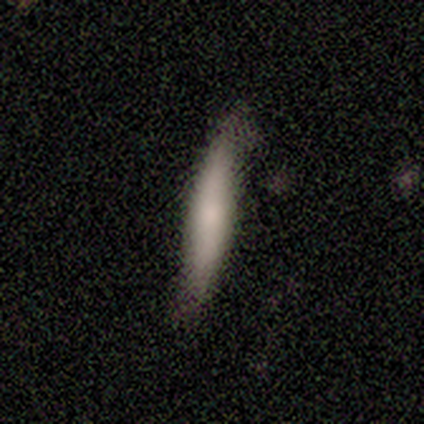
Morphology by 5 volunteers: This is clearly a smooth galaxy (80%). How rounded: clearly cigar-shaped (100%). Merging: clearly none (80%).